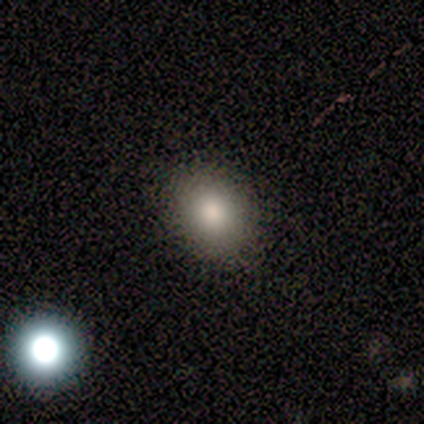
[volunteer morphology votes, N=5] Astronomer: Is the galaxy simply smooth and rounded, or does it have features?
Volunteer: smooth — 100%.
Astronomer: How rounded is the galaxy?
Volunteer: round — 80%.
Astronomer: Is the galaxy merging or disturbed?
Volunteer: none — 80%.